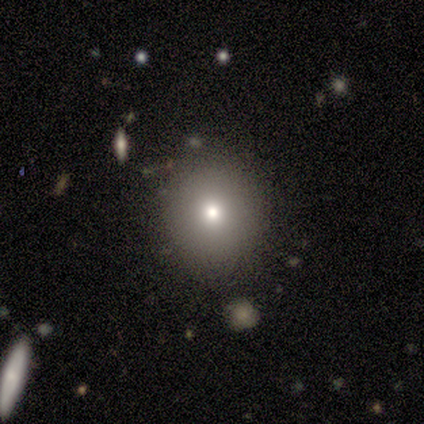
Overall: smooth (60%; featured or disk 20%). How rounded: round (100%). Merging: none (100%).